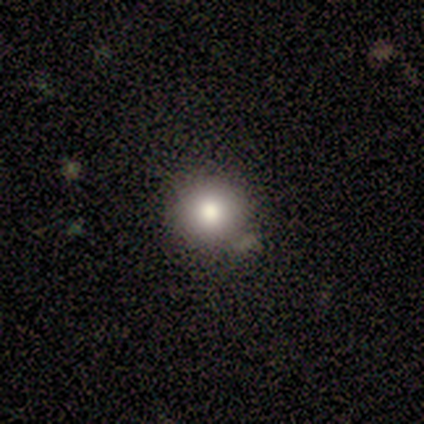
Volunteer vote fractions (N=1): Morphology: type=smooth (100%); roundness=round (100%); merging=none (100%).